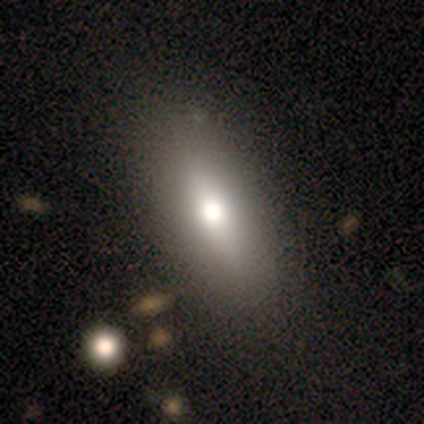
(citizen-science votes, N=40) Smooth or featured?
  - smooth: 75% *
  - featured or disk: 20%
  - star or artifact: 5%
How rounded?
  - in between: 67% *
  - cigar-shaped: 33%
  - round: 0%
Merging?
  - none: 63% *
  - minor disturbance: 5%
  - major disturbance: 5%
  - merger: 3%